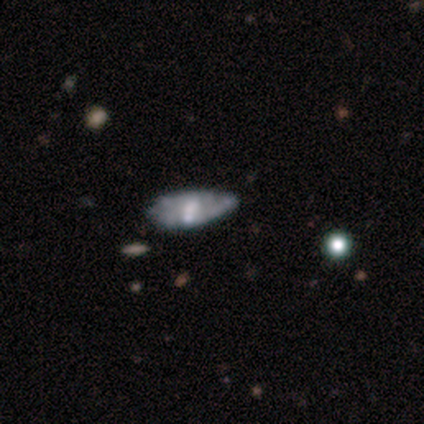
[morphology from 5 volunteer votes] Q: Smooth or featured?
A: featured or disk (80%); runner-up: smooth (20%)
Q: Edge-on disk?
A: no (100%)
Q: Bar?
A: no (75%); runner-up: strong (25%)
Q: Spiral arms?
A: yes (50%); tied with: no (50%)
Q: Spiral winding?
A: loose (100%)
Q: Spiral arm count?
A: 1 (50%); tied with: can't tell (50%)
Q: Bulge size?
A: moderate (50%); runner-up: large (25%)
Q: Merging?
A: minor disturbance (60%); runner-up: none (20%)